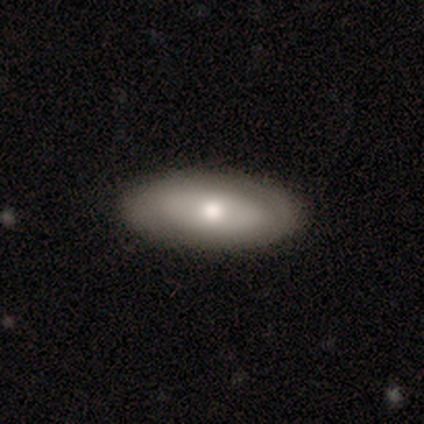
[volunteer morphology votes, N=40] Smooth or featured? smooth (65%)
How rounded? in between (92%)
Merging? none (92%)